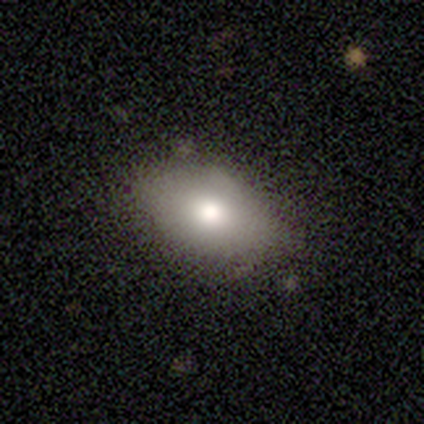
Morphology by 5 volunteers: type=smooth (100%); roundness=in between (100%); merging=none (60%).